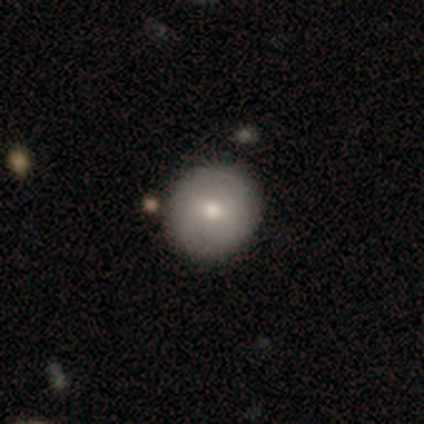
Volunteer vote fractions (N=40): Q: Smooth or featured?
A: smooth (65%); runner-up: featured or disk (35%)
Q: How rounded?
A: round (96%); runner-up: in between (4%)
Q: Merging?
A: none (55%); runner-up: minor disturbance (8%)